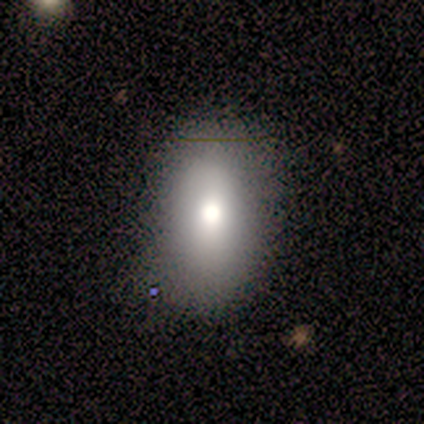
smooth-or-featured: smooth: 100% | featured or disk: 0% | star or artifact: 0%
  how-rounded: in between: 88% | cigar-shaped: 12% | round: 0%
  merging: none: 88% | minor disturbance: 12% | major disturbance: 0% | merger: 0%